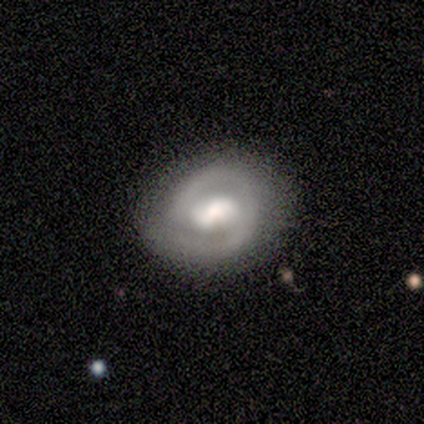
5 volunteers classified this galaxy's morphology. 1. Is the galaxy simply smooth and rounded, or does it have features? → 80% featured or disk, 20% smooth, 0% star or artifact.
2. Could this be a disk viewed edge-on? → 100% no, 0% yes.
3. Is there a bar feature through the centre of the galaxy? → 50% strong, 25% weak, 25% no.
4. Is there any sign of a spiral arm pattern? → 75% yes, 25% no.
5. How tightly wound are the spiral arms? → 67% tight, 33% medium, 0% loose.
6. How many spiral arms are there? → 100% 2, 0% 1, 0% 3, 0% 4, 0% more than 4, 0% can't tell.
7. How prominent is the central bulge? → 50% moderate, 25% large, 25% small, 0% dominant, 0% none.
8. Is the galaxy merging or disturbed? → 100% none, 0% minor disturbance, 0% major disturbance, 0% merger.